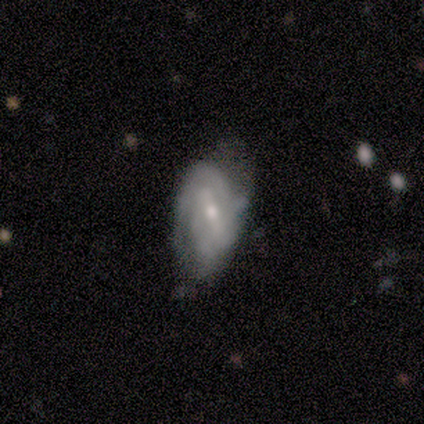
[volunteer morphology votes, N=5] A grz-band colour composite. It shows a featured or disk galaxy (100%) with a strong bar (40%, tied with weak), 2 (40%) loose (60%) spiral arms (100%) and a small central bulge (100%). Merging: none (60%).